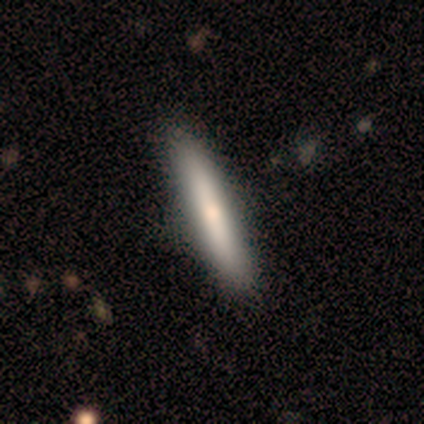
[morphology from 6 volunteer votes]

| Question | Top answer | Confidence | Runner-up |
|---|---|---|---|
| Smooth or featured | smooth | 50% | featured or disk (33%) |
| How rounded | cigar-shaped | 67% | in between (33%) |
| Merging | none | 60% | minor disturbance (40%) |